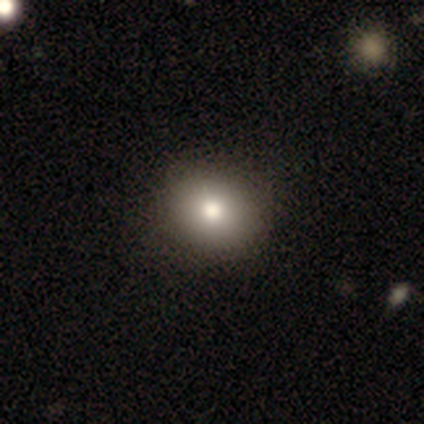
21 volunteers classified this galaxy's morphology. smooth-or-featured: smooth: 48% | star or artifact: 33% | featured or disk: 19%
  how-rounded: round: 70% | in between: 30% | cigar-shaped: 0%
  merging: none: 100% | minor disturbance: 0% | major disturbance: 0% | merger: 0%